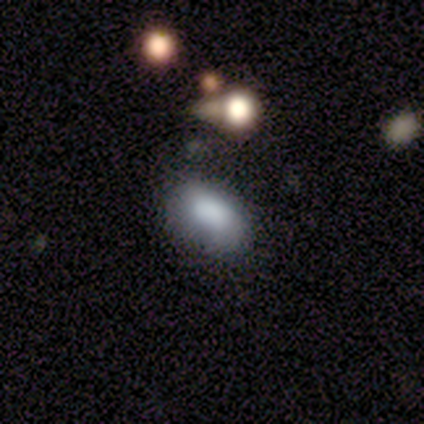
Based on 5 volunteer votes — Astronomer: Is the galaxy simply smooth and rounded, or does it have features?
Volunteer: smooth — 100%.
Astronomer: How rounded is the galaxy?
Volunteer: in between — 80%.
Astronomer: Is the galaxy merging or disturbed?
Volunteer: none — 60% (runner-up: minor disturbance, 40%).